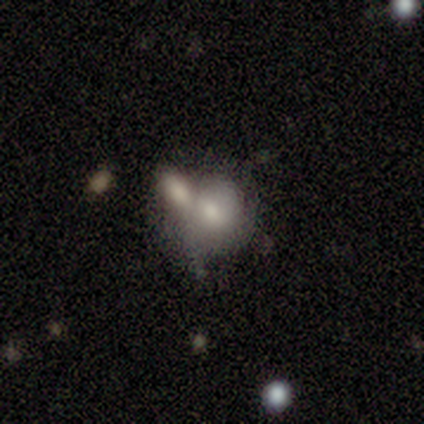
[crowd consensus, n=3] This appears to be a smooth galaxy with no disk features (67%) that is round (100%). Merging: merger (67%).